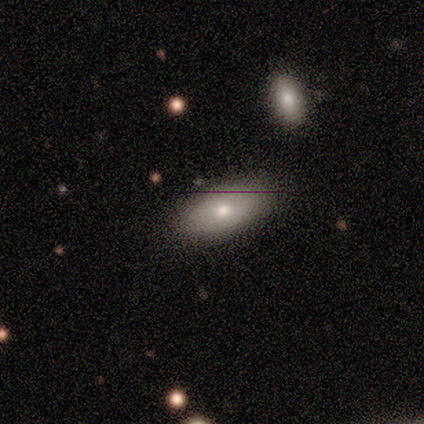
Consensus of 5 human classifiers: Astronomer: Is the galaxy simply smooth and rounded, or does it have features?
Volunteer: featured or disk — 60% (runner-up: smooth, 40%).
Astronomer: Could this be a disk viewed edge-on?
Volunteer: no — 67%.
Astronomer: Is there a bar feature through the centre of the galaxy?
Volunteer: no — 100%.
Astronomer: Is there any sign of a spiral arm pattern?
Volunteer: no — 100%.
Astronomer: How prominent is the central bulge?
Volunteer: moderate — 100%.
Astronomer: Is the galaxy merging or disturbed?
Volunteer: none — 80%.